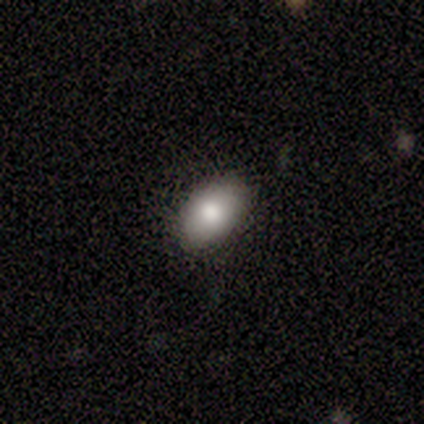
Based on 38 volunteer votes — This is clearly a smooth galaxy (82%). How rounded: clearly in between (87%). Merging: clearly none (85%).